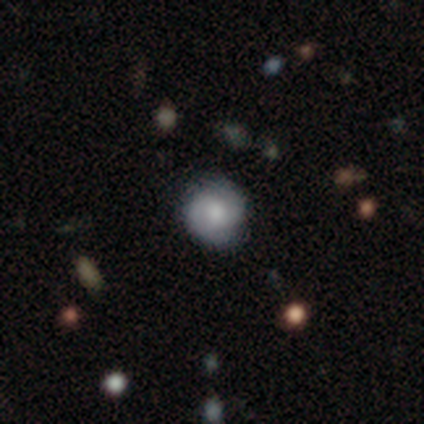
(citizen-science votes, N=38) Overall: featured or disk (53%; smooth 42%). Edge-on disk: no (100%). Bar: no (60%; weak 35%). Spiral arms: yes (90%). Spiral arm count: 2 (72%). Spiral winding: tight (56%; medium 28%). Bulge size: small (35%; moderate 30%). Merging: none (81%).